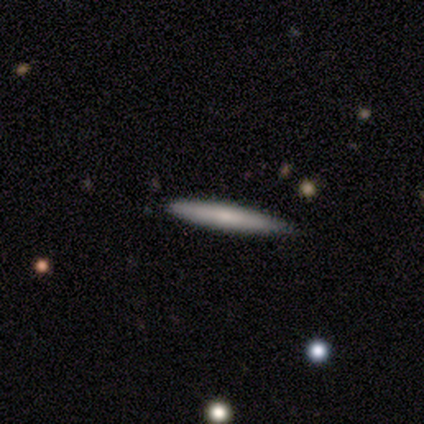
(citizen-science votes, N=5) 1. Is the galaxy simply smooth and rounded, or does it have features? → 60% smooth, 40% featured or disk, 0% star or artifact.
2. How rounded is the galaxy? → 100% cigar-shaped, 0% round, 0% in between.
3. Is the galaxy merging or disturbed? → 60% none, 40% minor disturbance, 0% major disturbance, 0% merger.